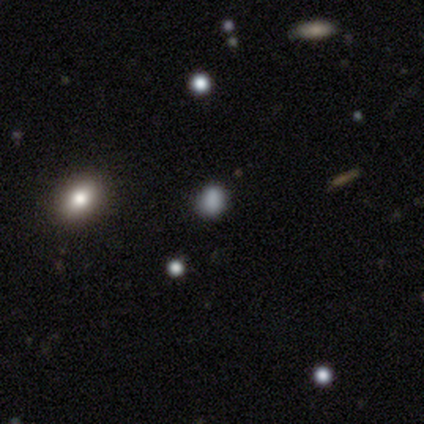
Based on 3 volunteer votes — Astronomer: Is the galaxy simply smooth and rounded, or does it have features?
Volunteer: smooth — 67%.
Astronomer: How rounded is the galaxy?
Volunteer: round — 100%.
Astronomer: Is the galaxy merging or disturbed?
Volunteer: none — 100%.